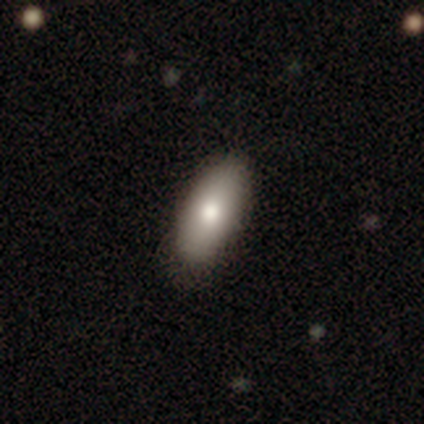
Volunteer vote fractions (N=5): Q: Smooth or featured?
A: smooth (100%)
Q: How rounded?
A: in between (100%)
Q: Merging?
A: none (80%); runner-up: merger (20%)